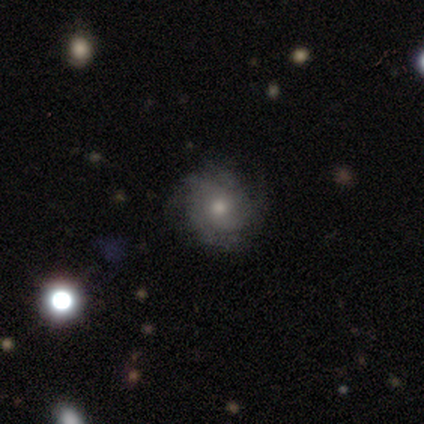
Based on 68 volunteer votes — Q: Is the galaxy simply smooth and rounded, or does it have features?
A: featured or disk — 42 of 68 (62%).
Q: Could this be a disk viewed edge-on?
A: no — 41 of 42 (98%).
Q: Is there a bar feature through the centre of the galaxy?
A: no — 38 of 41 (93%).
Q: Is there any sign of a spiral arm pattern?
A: yes — 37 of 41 (90%).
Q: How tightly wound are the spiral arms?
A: tight — 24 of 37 (65%).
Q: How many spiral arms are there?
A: can't tell — 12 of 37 (32%).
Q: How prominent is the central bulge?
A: moderate — 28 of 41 (68%).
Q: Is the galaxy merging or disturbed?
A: none — 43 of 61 (70%).